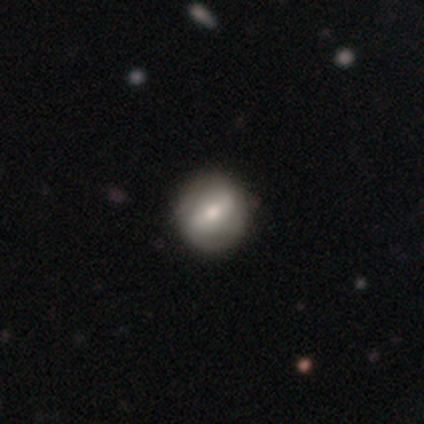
featured or disk 67%, smooth 17%, star or artifact 17%. Down the decision tree: edge-on disk — no (100%); bar — weak (50%); spiral arms — yes (100%); spiral arm count — 2 (75%); spiral winding — medium (50%); bulge size — moderate (100%); merging — none (80%).